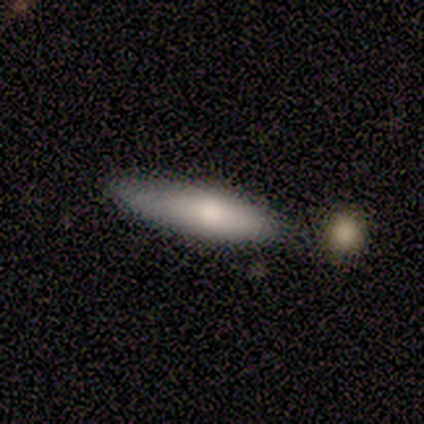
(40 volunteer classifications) Smooth or featured?
  - smooth: 78% *
  - featured or disk: 20%
  - star or artifact: 2%
How rounded?
  - cigar-shaped: 74% *
  - in between: 26%
  - round: 0%
Merging?
  - none: 46% *
  - minor disturbance: 18%
  - merger: 10%
  - major disturbance: 8%